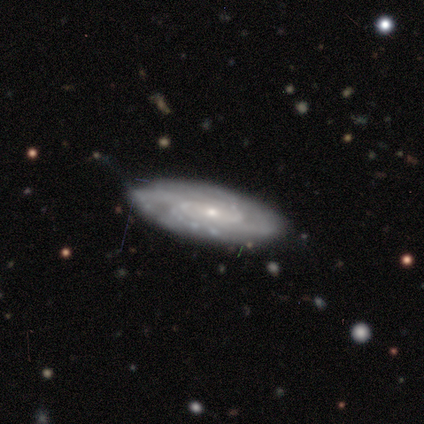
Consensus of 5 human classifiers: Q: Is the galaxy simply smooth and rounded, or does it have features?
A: featured or disk — 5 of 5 (100%).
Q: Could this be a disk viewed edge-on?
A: no — 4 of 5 (80%).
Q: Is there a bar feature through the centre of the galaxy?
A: strong — 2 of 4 (50%).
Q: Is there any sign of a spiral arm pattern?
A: yes — 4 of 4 (100%).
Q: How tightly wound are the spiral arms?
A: tight — 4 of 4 (100%).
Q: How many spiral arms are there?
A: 2 — 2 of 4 (50%).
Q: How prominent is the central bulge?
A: moderate — 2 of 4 (50%, tied with small).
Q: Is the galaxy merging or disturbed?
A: none — 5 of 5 (100%).